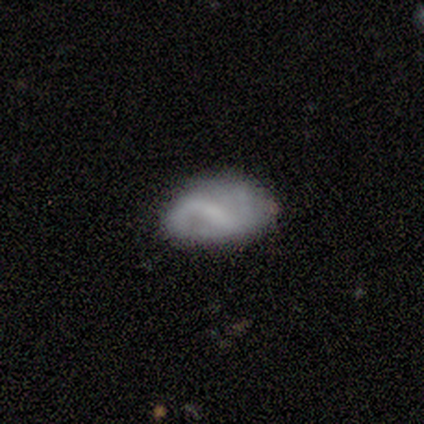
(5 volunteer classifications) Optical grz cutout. It shows a smooth galaxy with no disk features (40%, tied with featured or disk) that is in between round and cigar-shaped (100%). Merging: none (75%).